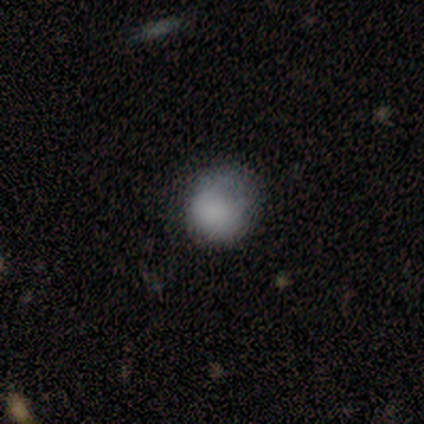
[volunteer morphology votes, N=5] This appears to be a smooth galaxy with no disk features (100%) that is round (60%). Merging: minor disturbance (60%).